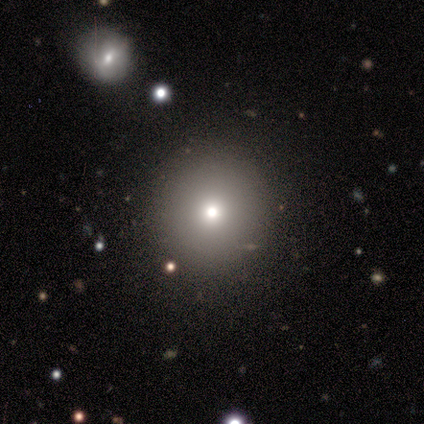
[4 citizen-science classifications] smooth-or-featured: smooth: 75% | featured or disk: 25% | star or artifact: 0%
  how-rounded: round: 100% | in between: 0% | cigar-shaped: 0%
  merging: none: 75% | merger: 25% | minor disturbance: 0% | major disturbance: 0%